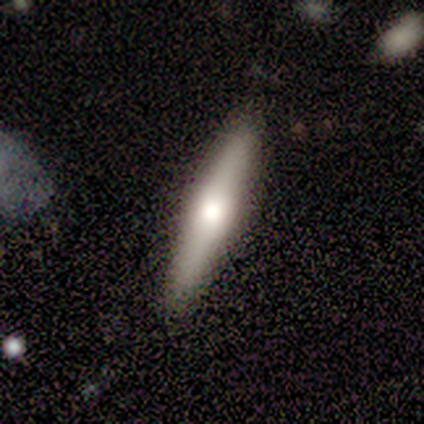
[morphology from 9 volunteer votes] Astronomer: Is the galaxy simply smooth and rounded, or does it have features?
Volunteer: featured or disk — 67%.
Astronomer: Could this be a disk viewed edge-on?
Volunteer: yes — 67%.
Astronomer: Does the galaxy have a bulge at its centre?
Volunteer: rounded — 100%.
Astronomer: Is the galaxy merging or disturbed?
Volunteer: none — 89%.